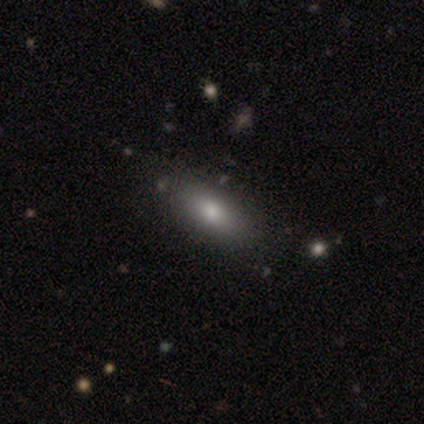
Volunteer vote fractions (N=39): smooth-or-featured: smooth: 77% | featured or disk: 18% | star or artifact: 5%
  how-rounded: in between: 87% | cigar-shaped: 13% | round: 0%
  merging: none: 76% | minor disturbance: 8% | major disturbance: 3% | merger: 0%